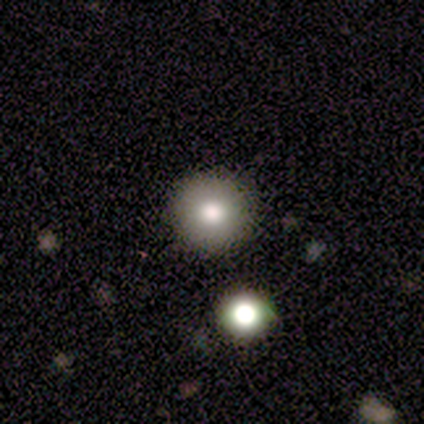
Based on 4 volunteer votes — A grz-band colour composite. It shows a smooth galaxy with no disk features (75%) that is round (67%). Merging: none (50%).